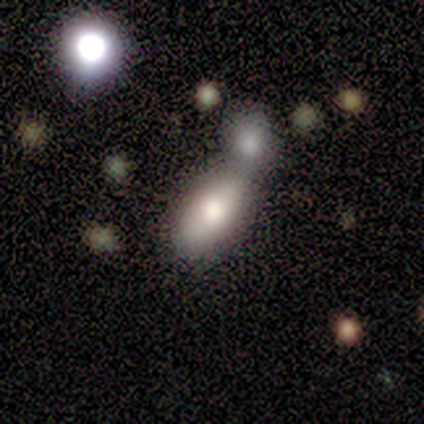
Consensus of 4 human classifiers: A smooth galaxy with no disk features (100%) that is cigar-shaped (50%). Merging: merger (50%).